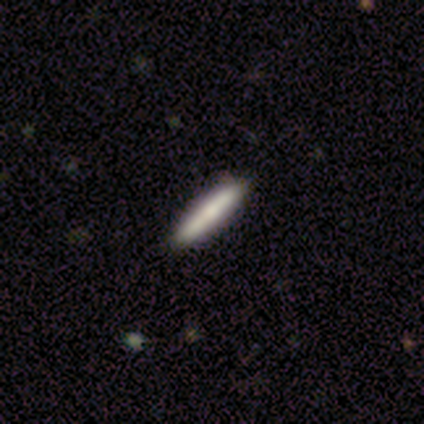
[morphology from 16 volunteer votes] A smooth galaxy with no disk features (50%) that is cigar-shaped (100%). Merging: none (100%).